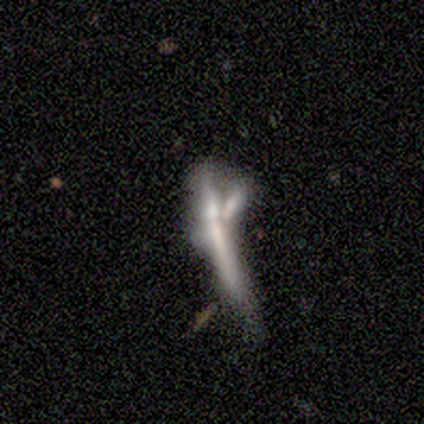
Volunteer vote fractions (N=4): A smooth galaxy with no disk features (50%, tied with star or artifact) that is cigar-shaped (100%). Merging: major disturbance (50%, tied with merger).